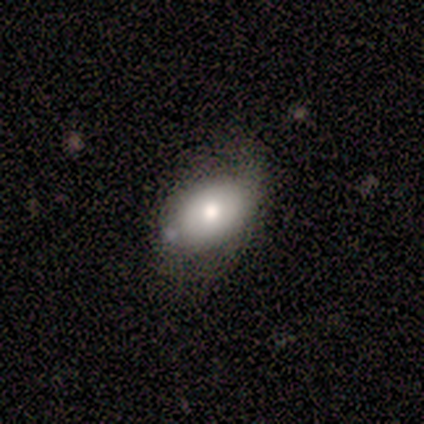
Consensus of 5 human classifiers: Smooth or featured? 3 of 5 (60%) said smooth. How rounded? 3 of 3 (100%) said in between. Merging? 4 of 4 (100%) said none.